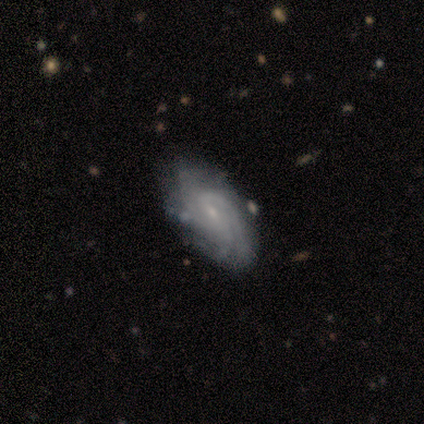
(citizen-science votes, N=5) This appears to be a featured or disk galaxy (100%) with a weak bar (75%), 3 (50%) tight (50%) spiral arms (100%) and a small central bulge (100%). Merging: none (80%).